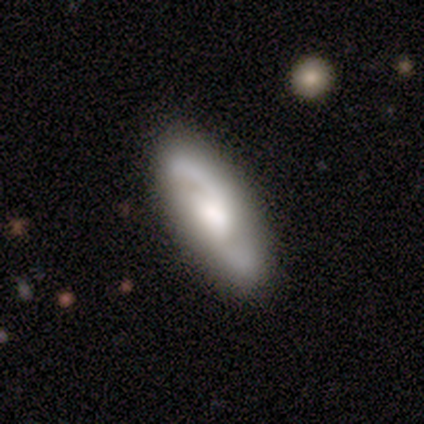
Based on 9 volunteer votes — Smooth or featured?
  - featured or disk: 78% *
  - smooth: 22%
  - star or artifact: 0%
Edge-on disk?
  - no: 100% *
  - yes: 0%
Bar?
  - no: 71% *
  - weak: 29%
  - strong: 0%
Spiral arms?
  - yes: 100% *
  - no: 0%
Spiral winding?
  - loose: 71% *
  - medium: 29%
  - tight: 0%
Spiral arm count?
  - 2: 100% *
  - 1: 0%
  - 3: 0%
  - 4: 0%
  - more than 4: 0%
  - can't tell: 0%
Bulge size?
  - moderate: 71% *
  - large: 29%
  - dominant: 0%
  - small: 0%
  - none: 0%
Merging?
  - none: 89% *
  - minor disturbance: 11%
  - major disturbance: 0%
  - merger: 0%